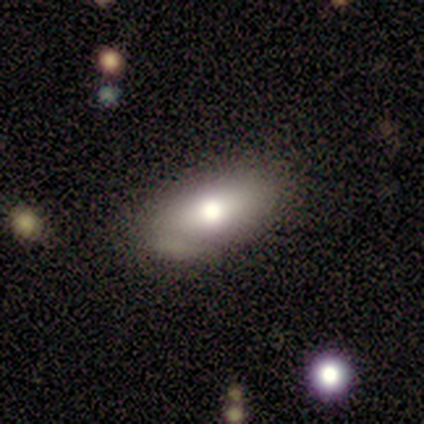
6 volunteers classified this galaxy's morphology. Smooth or featured: smooth — 67% (featured or disk — 17%)
How rounded: in between — 100%
Merging: minor disturbance — 60% (none — 40%)